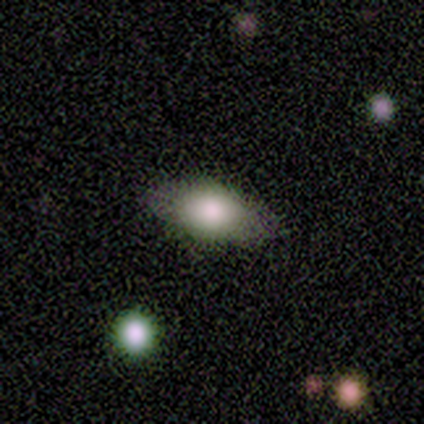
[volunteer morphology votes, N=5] Volunteers were most divided on "smooth or featured": smooth: 60%, featured or disk: 40%, star or artifact: 0%. More confident: how rounded — in between (100%); merging — none (80%).